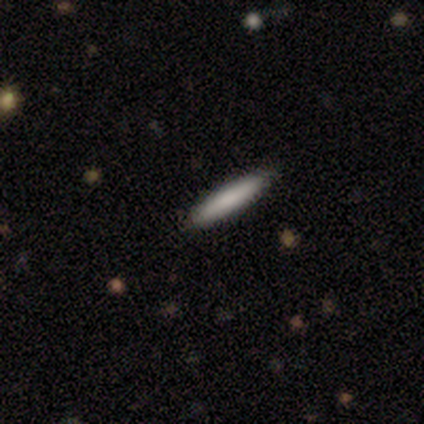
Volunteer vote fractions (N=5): smooth 100%, featured or disk 0%, star or artifact 0%. Down the decision tree: how rounded — cigar-shaped (100%); merging — none (100%).